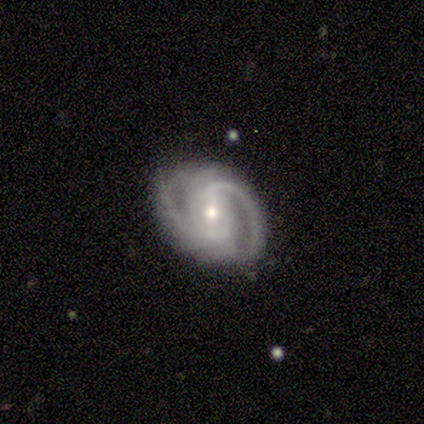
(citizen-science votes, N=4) Smooth or featured? featured or disk (100%)
Edge-on disk? no (100%)
Bar? strong (50%, tied with weak)
Spiral arms? yes (100%)
Spiral winding? tight (50%, tied with medium)
Spiral arm count? 2 (100%)
Bulge size? moderate (50%, tied with small)
Merging? none (50%)